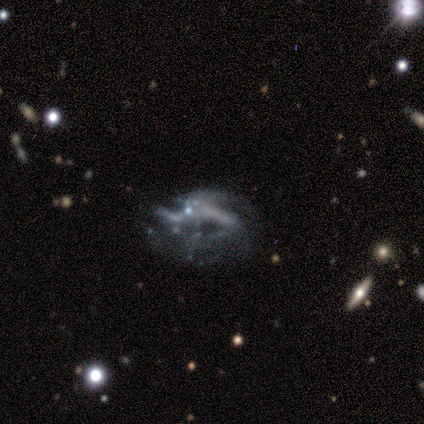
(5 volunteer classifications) Smooth or featured?
  - featured or disk: 80% *
  - star or artifact: 20%
  - smooth: 0%
Edge-on disk?
  - no: 100% *
  - yes: 0%
Bar?
  - weak: 50% *
  - strong: 25%
  - no: 25%
Spiral arms?
  - yes: 50% * (tied)
  - no: 50% * (tied)
Spiral winding?
  - loose: 100% *
  - tight: 0%
  - medium: 0%
Spiral arm count?
  - 3: 100% *
  - 1: 0%
  - 2: 0%
  - 4: 0%
  - more than 4: 0%
  - can't tell: 0%
Bulge size?
  - none: 75% *
  - moderate: 25%
  - dominant: 0%
  - large: 0%
  - small: 0%
Merging?
  - none: 25% * (tied)
  - minor disturbance: 25% * (tied)
  - major disturbance: 25% * (tied)
  - merger: 25% * (tied)